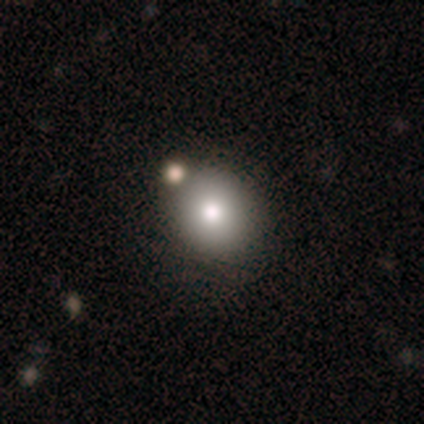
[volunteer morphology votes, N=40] Smooth or featured? 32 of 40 (80%) said smooth. How rounded? 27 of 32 (84%) said round. Merging? 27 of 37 (73%) said none.